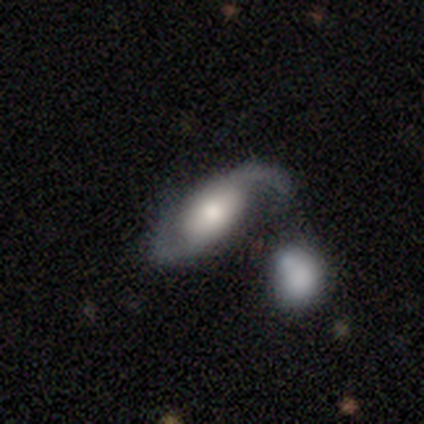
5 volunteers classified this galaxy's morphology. Smooth or featured: featured or disk — 60% (smooth — 20%)
Edge-on disk: no — 100%
Bar: no — 67% (weak — 33%)
Spiral arms: yes — 100%
Spiral winding: loose — 67% (medium — 33%)
Spiral arm count: 2 — 100%
Bulge size: moderate — 67% (large — 33%)
Merging: none — 75% (merger — 25%)